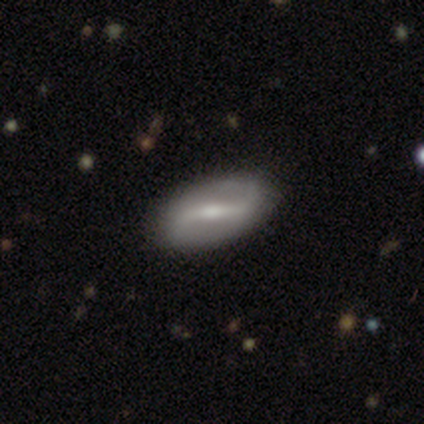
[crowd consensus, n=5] Overall: featured or disk (80%). Edge-on disk: no (100%). Bar: strong (50%, tied with weak). Spiral arms: yes (100%). Spiral arm count: 2 (100%). Spiral winding: loose (50%; tight 25%). Bulge size: small (75%). Merging: none (100%).